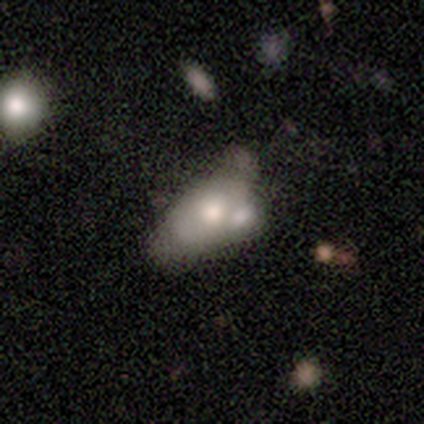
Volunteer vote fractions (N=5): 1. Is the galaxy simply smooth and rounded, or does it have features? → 40% smooth (tied), 40% star or artifact (tied), 20% featured or disk.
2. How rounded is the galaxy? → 100% in between, 0% round, 0% cigar-shaped.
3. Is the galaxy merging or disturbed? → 67% merger, 33% none, 0% minor disturbance, 0% major disturbance.